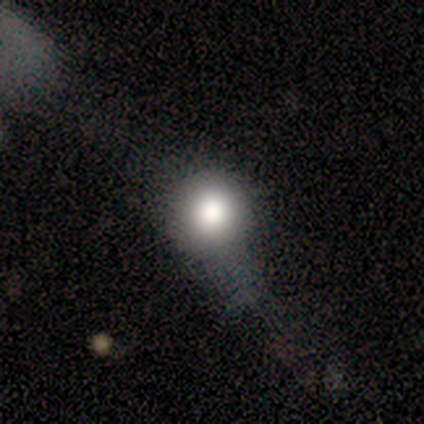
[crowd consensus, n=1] Smooth or featured: smooth — 100%
How rounded: round — 100%
Merging: none — 100%